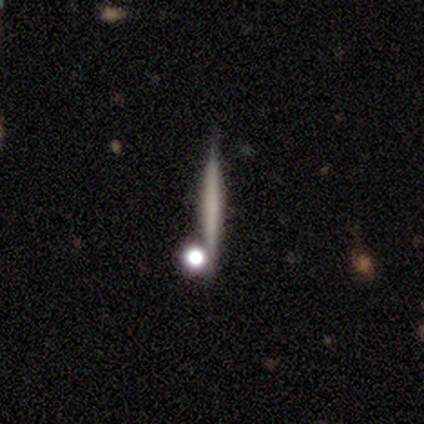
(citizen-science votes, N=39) A featured or disk galaxy (49%) viewed edge-on (95%) with no central bulge (83%). Merging: none (84%).